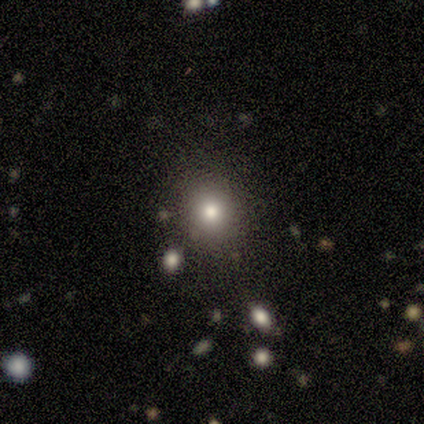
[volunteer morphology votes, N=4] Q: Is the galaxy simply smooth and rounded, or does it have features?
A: smooth — 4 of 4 (100%).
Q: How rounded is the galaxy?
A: round — 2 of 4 (50%, tied with in between).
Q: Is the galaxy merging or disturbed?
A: none — 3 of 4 (75%).